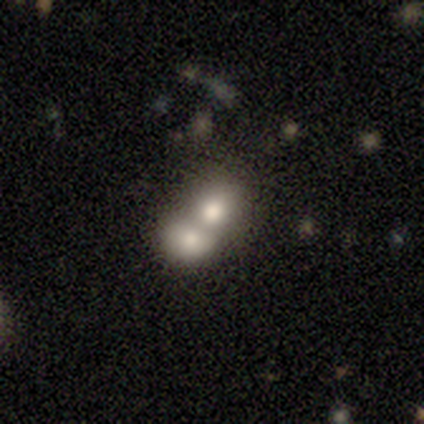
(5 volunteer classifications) Overall: smooth (80%). How rounded: round (50%, tied with in between). Merging: merger (75%).